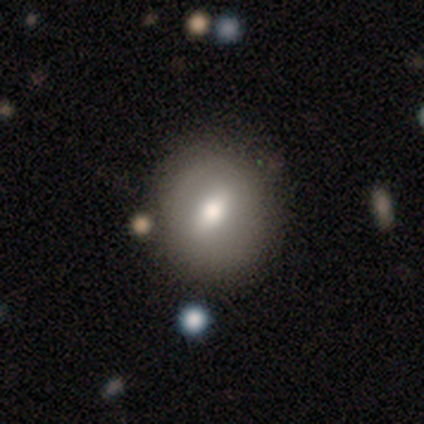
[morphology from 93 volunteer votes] Smooth or featured?
  - smooth: 59% *
  - featured or disk: 34%
  - star or artifact: 6%
How rounded?
  - round: 65% *
  - in between: 29%
  - cigar-shaped: 5%
Merging?
  - none: 68% *
  - minor disturbance: 21%
  - merger: 7%
  - major disturbance: 5%